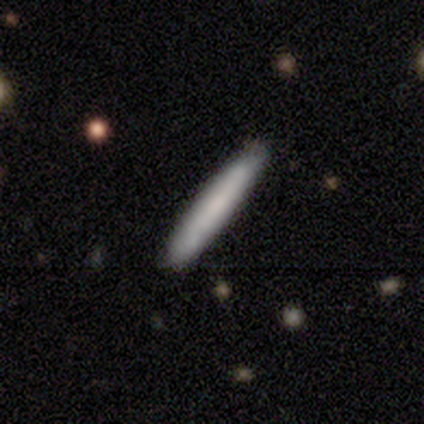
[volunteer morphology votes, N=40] Smooth or featured? smooth (65%)
How rounded? cigar-shaped (92%)
Merging? none (86%)